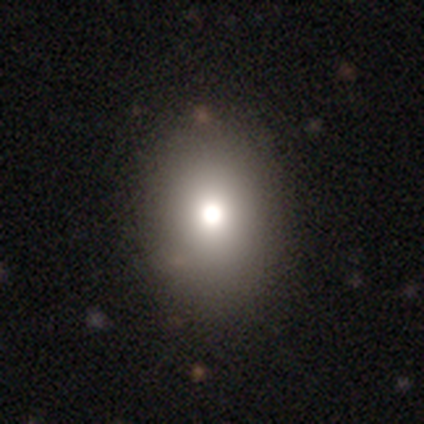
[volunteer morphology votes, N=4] This appears to be a smooth galaxy with no disk features (75%) that is in between round and cigar-shaped (67%). Merging: none (50%).